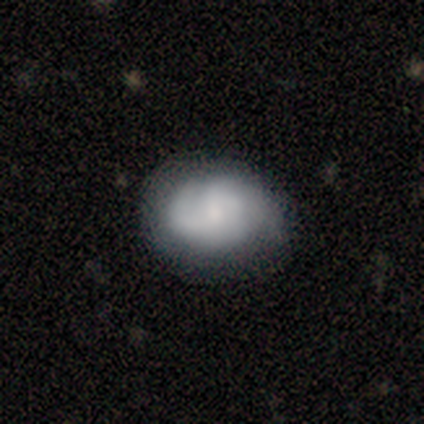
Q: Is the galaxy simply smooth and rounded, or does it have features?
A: featured or disk — 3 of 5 (60%).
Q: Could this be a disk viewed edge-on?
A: no — 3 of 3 (100%).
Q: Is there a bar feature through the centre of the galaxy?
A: no — 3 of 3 (100%).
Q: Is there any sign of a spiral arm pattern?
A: yes — 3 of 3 (100%).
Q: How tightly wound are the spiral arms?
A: tight — 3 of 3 (100%).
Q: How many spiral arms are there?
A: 2 — 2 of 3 (67%).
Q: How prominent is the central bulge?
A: none — 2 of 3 (67%).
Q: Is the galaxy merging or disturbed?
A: none — 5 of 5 (100%).